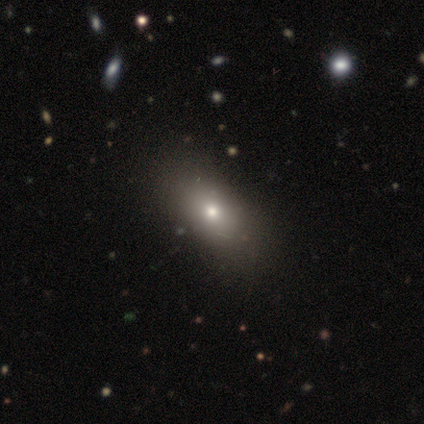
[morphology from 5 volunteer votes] A smooth galaxy with no disk features (80%) that is round (50%, tied with in between).

Vote fractions:
- Smooth or featured? smooth: 80% / featured or disk: 20% / star or artifact: 0%
- How rounded? round: 50% (tied) / in between: 50% (tied) / cigar-shaped: 0%
- Merging? none: 80% / merger: 20% / minor disturbance: 0% / major disturbance: 0%